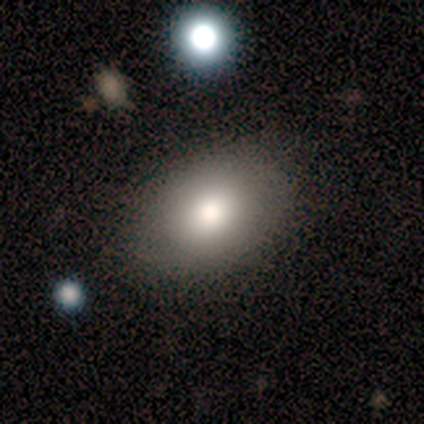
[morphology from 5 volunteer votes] Smooth or featured? smooth (80%)
How rounded? in between (100%)
Merging? none (60%)